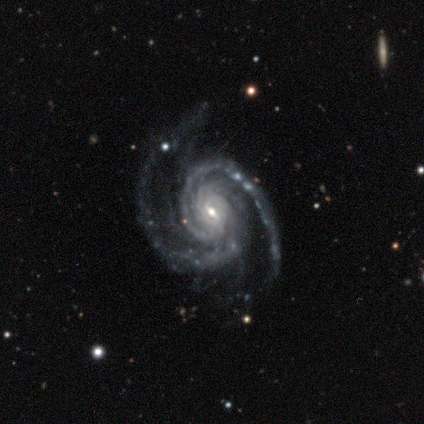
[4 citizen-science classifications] Smooth or featured?
  - featured or disk: 100% *
  - smooth: 0%
  - star or artifact: 0%
Edge-on disk?
  - no: 100% *
  - yes: 0%
Bar?
  - weak: 75% *
  - no: 25%
  - strong: 0%
Spiral arms?
  - yes: 100% *
  - no: 0%
Spiral winding?
  - tight: 75% *
  - medium: 25%
  - loose: 0%
Spiral arm count?
  - 2: 75% *
  - 3: 25%
  - 1: 0%
  - 4: 0%
  - more than 4: 0%
  - can't tell: 0%
Bulge size?
  - small: 75% *
  - moderate: 25%
  - dominant: 0%
  - large: 0%
  - none: 0%
Merging?
  - none: 50% * (tied)
  - minor disturbance: 50% * (tied)
  - major disturbance: 0%
  - merger: 0%